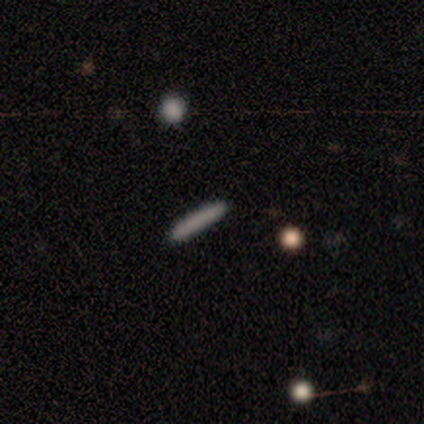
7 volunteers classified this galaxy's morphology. type=smooth (71%); roundness=cigar-shaped (100%); merging=none (86%).